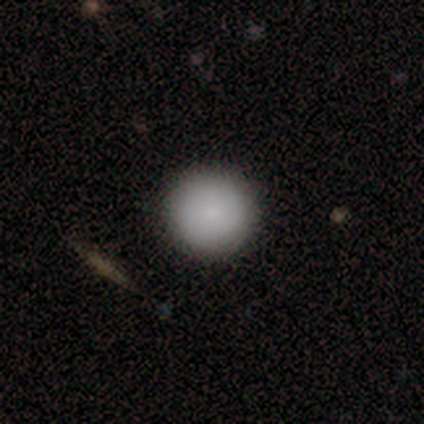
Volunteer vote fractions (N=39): A smooth galaxy with no disk features (95%) that is round (95%).

Vote fractions:
- Smooth or featured? smooth: 95% / featured or disk: 3% / star or artifact: 3%
- How rounded? round: 95% / in between: 5% / cigar-shaped: 0%
- Merging? none: 97% / minor disturbance: 3% / major disturbance: 0% / merger: 0%